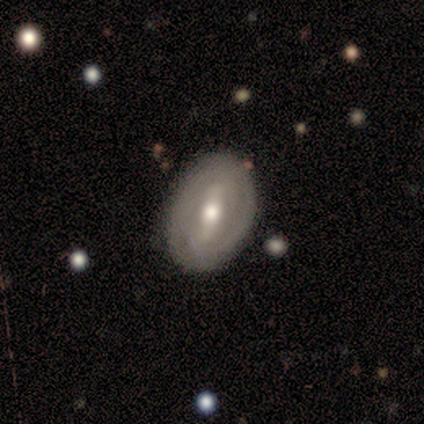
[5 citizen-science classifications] Morphology: type=featured or disk (80%); edge-on=no (100%); bar=strong (75%); spiral arms=yes (50%, tied with no); winding=tight (100%); arm count=can't tell (100%); bulge=moderate (100%); merging=none (80%).